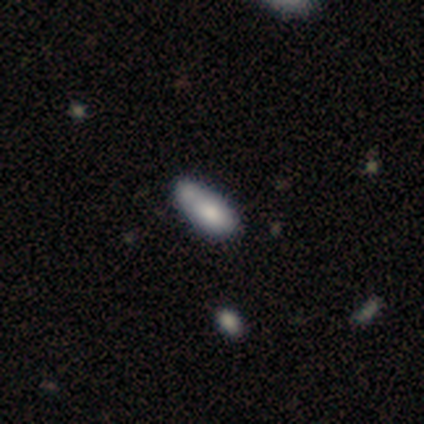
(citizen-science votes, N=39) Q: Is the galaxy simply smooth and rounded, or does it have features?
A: smooth — 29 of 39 (74%).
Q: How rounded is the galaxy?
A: in between — 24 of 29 (83%).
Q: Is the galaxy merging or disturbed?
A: merger — 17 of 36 (47%).